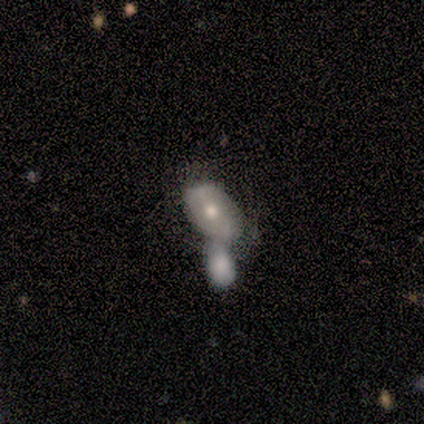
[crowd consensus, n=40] Overall: featured or disk (50%; smooth 40%). Edge-on disk: no (100%). Bar: no (70%). Spiral arms: no (60%; yes 40%). Bulge size: moderate (85%). Merging: merger (67%).